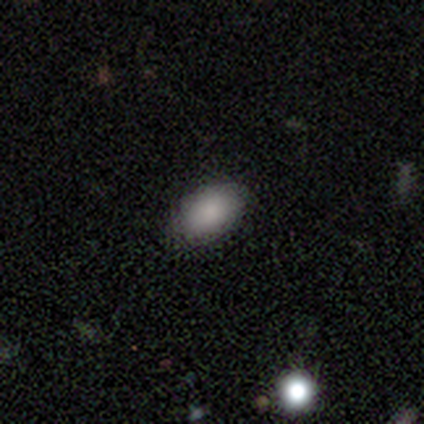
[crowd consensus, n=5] smooth_or_featured: smooth (p=1.00)
how_rounded: in between (p=1.00)
merging: none (p=0.80) [alt: minor disturbance p=0.20]